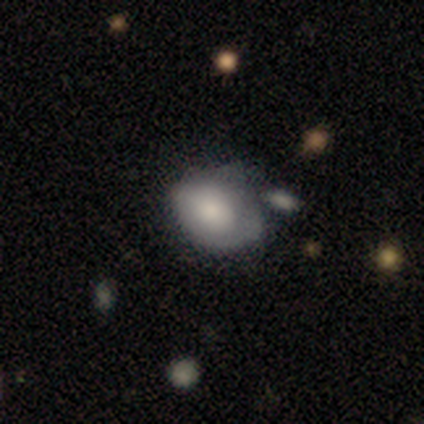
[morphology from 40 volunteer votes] A smooth galaxy with no disk features (57%) that is in between round and cigar-shaped (83%).

Vote fractions:
- Smooth or featured? smooth: 57% / featured or disk: 35% / star or artifact: 8%
- How rounded? in between: 83% / round: 17% / cigar-shaped: 0%
- Merging? minor disturbance: 32% / merger: 22% / none: 19% / major disturbance: 11%